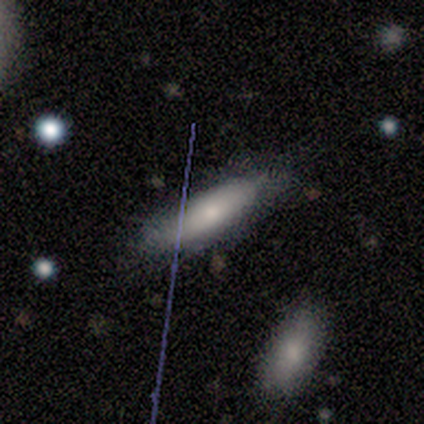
This appears to be a smooth galaxy with no disk features (80%) that is in between round and cigar-shaped (50%, tied with cigar-shaped). Merging: none (100%).